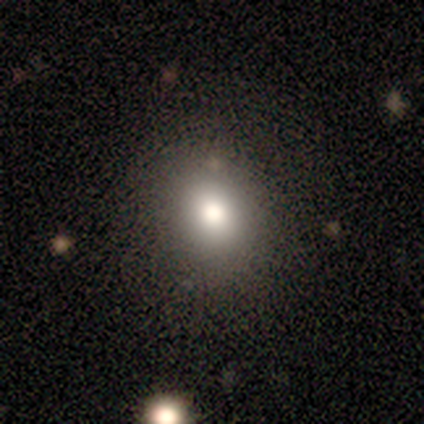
A smooth galaxy with no disk features (67%) that is round (100%).

Vote fractions:
- Smooth or featured? smooth: 67% / featured or disk: 17% / star or artifact: 17%
- How rounded? round: 100% / in between: 0% / cigar-shaped: 0%
- Merging? none: 80% / minor disturbance: 20% / major disturbance: 0% / merger: 0%